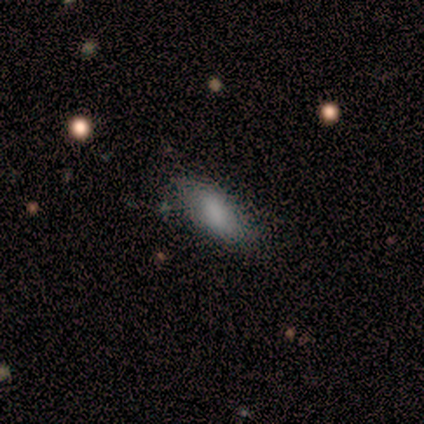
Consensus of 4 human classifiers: A smooth galaxy with no disk features (100%) that is in between round and cigar-shaped (100%).

Vote fractions:
- Smooth or featured? smooth: 100% / featured or disk: 0% / star or artifact: 0%
- How rounded? in between: 100% / round: 0% / cigar-shaped: 0%
- Merging? none: 50% (tied) / minor disturbance: 50% (tied) / major disturbance: 0% / merger: 0%